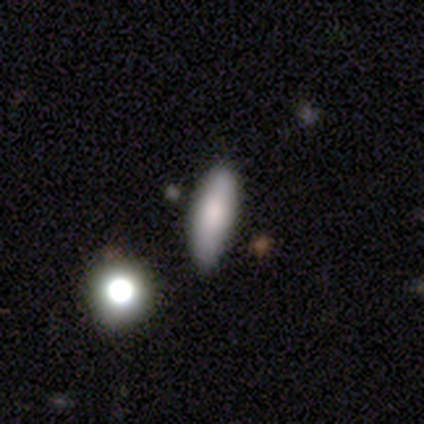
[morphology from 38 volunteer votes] Volunteers were most divided on "how rounded": in between: 59%, cigar-shaped: 37%, round: 4%. More confident: merging — none (71%); smooth or featured — smooth (71%).